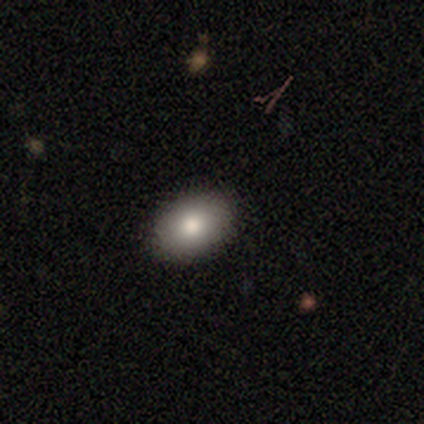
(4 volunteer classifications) smooth-or-featured: smooth: 100% | featured or disk: 0% | star or artifact: 0%
  how-rounded: in between: 100% | round: 0% | cigar-shaped: 0%
  merging: none: 100% | minor disturbance: 0% | major disturbance: 0% | merger: 0%